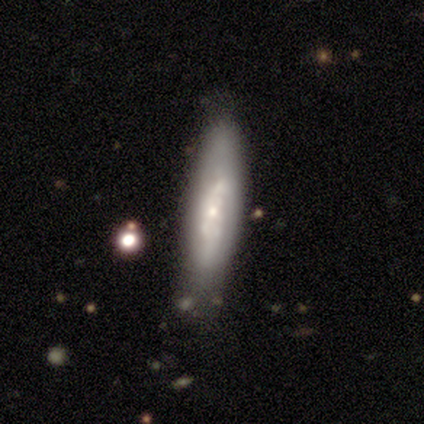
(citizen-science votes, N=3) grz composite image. It shows a featured or disk galaxy (67%) viewed edge-on (100%) with a boxy central bulge (50%, tied with rounded). Merging: none (33%, tied with minor disturbance and merger).